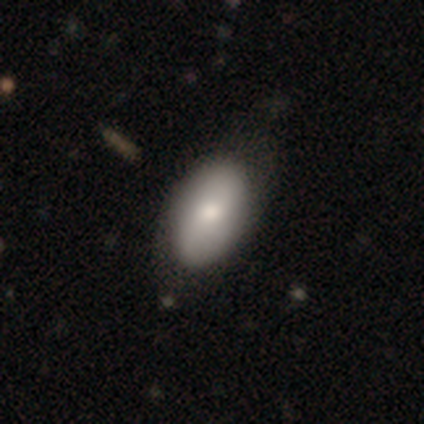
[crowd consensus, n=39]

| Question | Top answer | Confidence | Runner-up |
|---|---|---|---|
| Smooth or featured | smooth | 82% | featured or disk (18%) |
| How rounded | in between | 88% | round (9%) |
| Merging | none | 72% | minor disturbance (18%) |